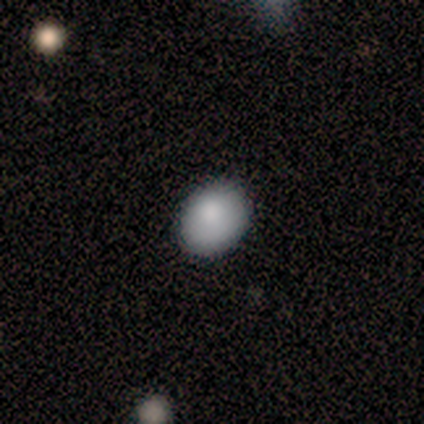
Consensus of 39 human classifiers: Q: Smooth or featured?
A: smooth (92%); runner-up: featured or disk (5%)
Q: How rounded?
A: in between (53%); runner-up: round (47%)
Q: Merging?
A: none (92%); runner-up: major disturbance (5%)